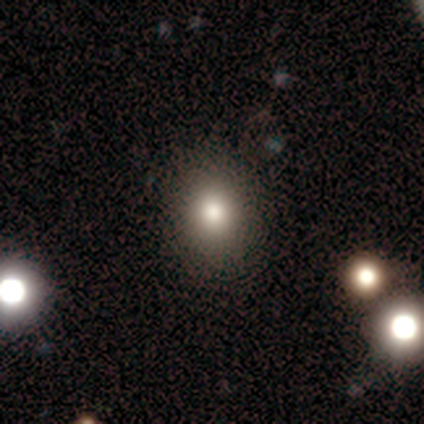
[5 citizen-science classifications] Smooth or featured: smooth — 100%
How rounded: round — 80% (in between — 20%)
Merging: none — 80% (minor disturbance — 20%)